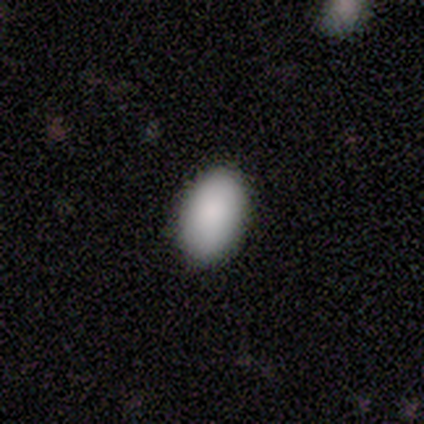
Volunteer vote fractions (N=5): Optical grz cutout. It shows a smooth galaxy with no disk features (80%) that is in between round and cigar-shaped (100%). Merging: none (80%).